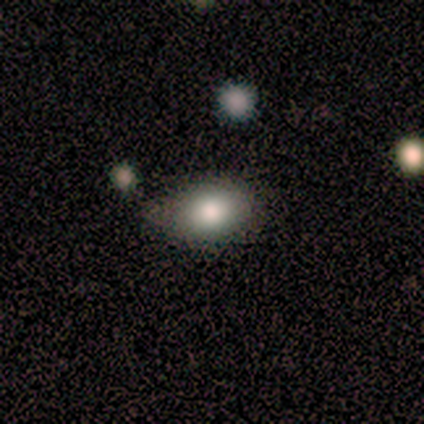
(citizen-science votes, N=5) smooth 80%, star or artifact 20%, featured or disk 0%. Down the decision tree: how rounded — in between (75%); merging — none (100%).